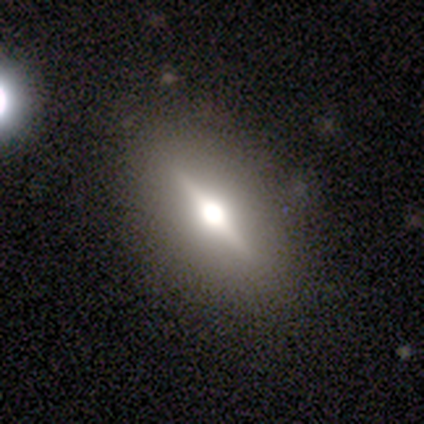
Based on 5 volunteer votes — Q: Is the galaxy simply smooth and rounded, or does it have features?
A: featured or disk — 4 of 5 (80%).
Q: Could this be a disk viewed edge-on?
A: yes — 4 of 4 (100%).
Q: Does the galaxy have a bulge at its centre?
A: rounded — 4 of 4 (100%).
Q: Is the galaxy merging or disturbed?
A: none — 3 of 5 (60%).